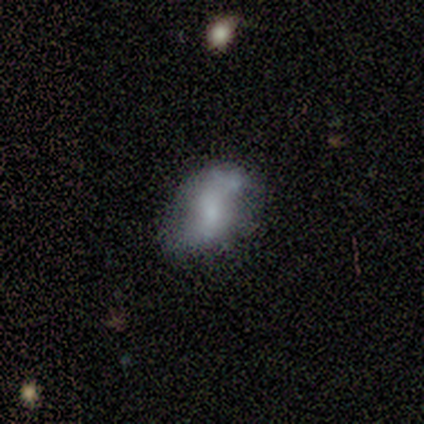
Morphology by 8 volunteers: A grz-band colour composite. It shows a smooth galaxy with no disk features (62%) that is in between round and cigar-shaped (80%). Merging: none (50%).